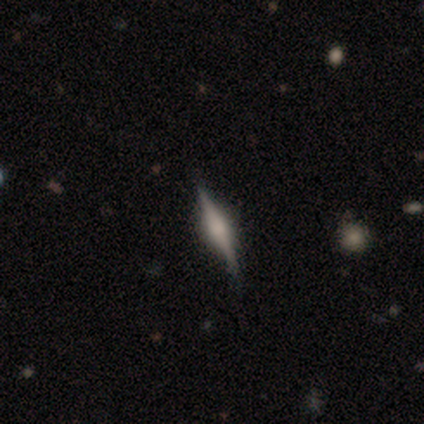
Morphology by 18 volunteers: Q: Smooth or featured?
A: featured or disk (72%); runner-up: smooth (22%)
Q: Edge-on disk?
A: yes (100%)
Q: Edge-on bulge?
A: rounded (85%); runner-up: boxy (15%)
Q: Merging?
A: none (82%); runner-up: minor disturbance (18%)